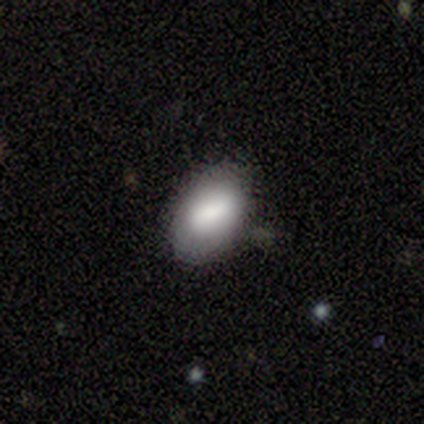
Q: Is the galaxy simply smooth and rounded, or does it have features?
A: smooth — 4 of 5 (80%).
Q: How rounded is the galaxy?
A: in between — 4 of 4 (100%).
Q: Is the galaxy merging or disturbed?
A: none — 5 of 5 (100%).